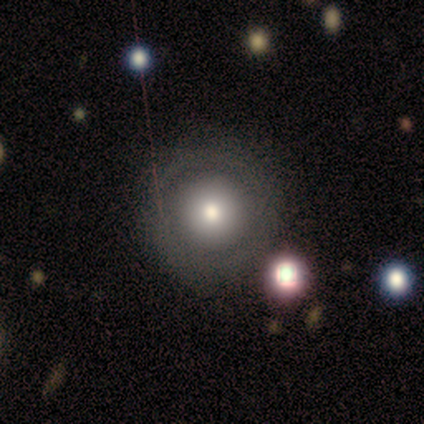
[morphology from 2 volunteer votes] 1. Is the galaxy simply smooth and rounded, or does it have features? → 100% smooth, 0% featured or disk, 0% star or artifact.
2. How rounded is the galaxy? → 100% round, 0% in between, 0% cigar-shaped.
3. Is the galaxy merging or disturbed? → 50% none (tied), 50% minor disturbance (tied), 0% major disturbance, 0% merger.